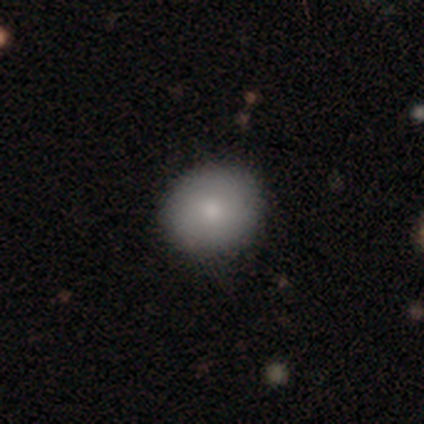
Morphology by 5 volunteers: smooth_or_featured: smooth (p=0.80) [alt: star or artifact p=0.20]
how_rounded: round (p=1.00)
merging: none (p=1.00)